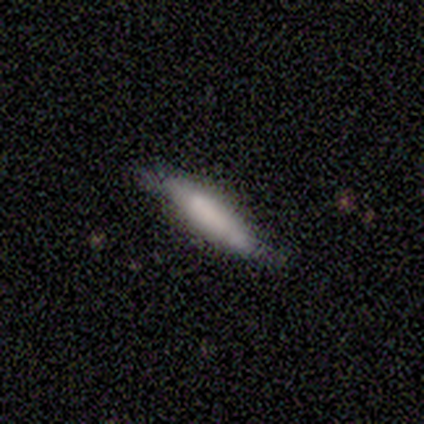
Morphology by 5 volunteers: A smooth galaxy with no disk features (80%) that is cigar-shaped (100%).

Vote fractions:
- Smooth or featured? smooth: 80% / featured or disk: 20% / star or artifact: 0%
- How rounded? cigar-shaped: 100% / round: 0% / in between: 0%
- Merging? none: 80% / minor disturbance: 20% / major disturbance: 0% / merger: 0%